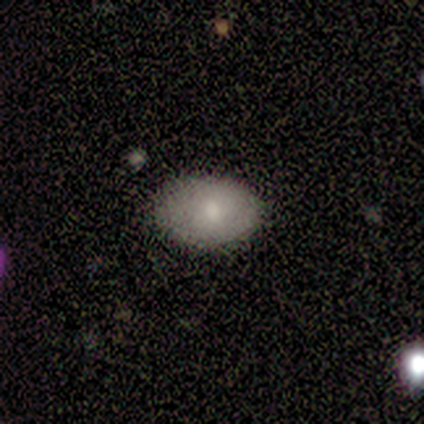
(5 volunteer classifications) Smooth or featured: smooth — 80% (featured or disk — 20%)
How rounded: in between — 100%
Merging: none — 80% (minor disturbance — 20%)